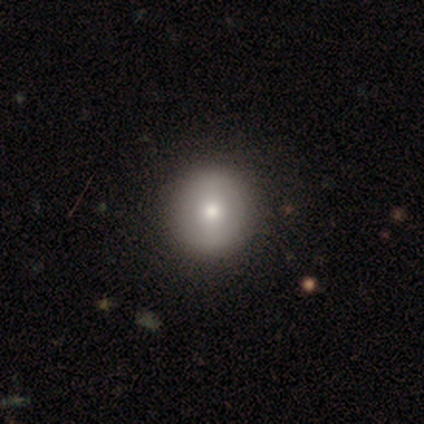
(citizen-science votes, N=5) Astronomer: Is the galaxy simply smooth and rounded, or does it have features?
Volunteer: smooth — 60% (runner-up: featured or disk, 40%).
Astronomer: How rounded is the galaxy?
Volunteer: round — 100%.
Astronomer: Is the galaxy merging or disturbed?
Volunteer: none — 80%.